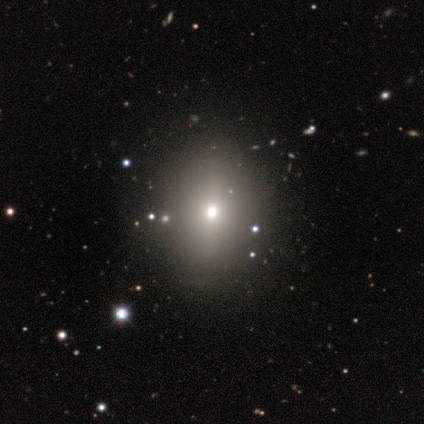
A star or artifact, not a galaxy (75%).